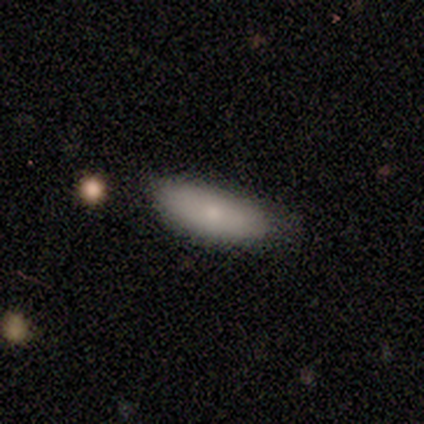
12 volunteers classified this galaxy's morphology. smooth-or-featured: smooth: 92% | star or artifact: 8% | featured or disk: 0%
  how-rounded: in between: 73% | cigar-shaped: 18% | round: 9%
  merging: none: 82% | minor disturbance: 18% | major disturbance: 0% | merger: 0%